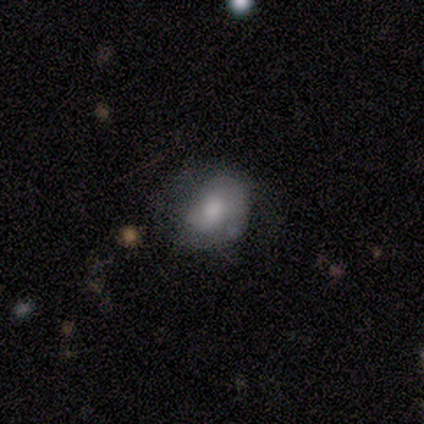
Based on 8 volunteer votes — This appears to be a smooth galaxy with no disk features (75%) that is round (50%, tied with in between). Merging: none (50%).